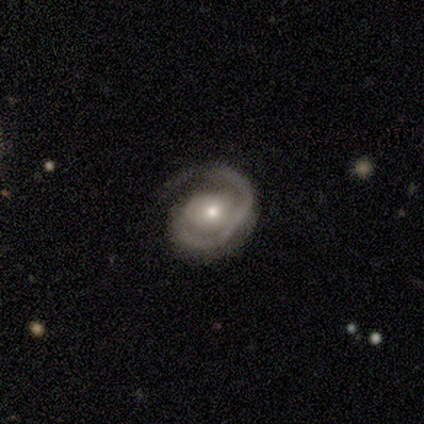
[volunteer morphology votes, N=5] This is clearly a featured or disk galaxy (80%). It is clearly not viewed edge-on (100%). Bar: clearly no (100%). Spiral arm pattern: clearly yes (100%). Spiral arm count: likely 1 (75%). Spiral winding: possibly tight (50%, tied with medium). Central bulge: possibly moderate (50%). Merging: likely major disturbance (60%).